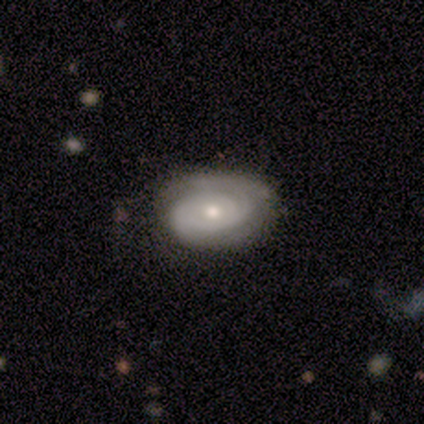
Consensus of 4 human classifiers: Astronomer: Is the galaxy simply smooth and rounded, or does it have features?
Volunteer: featured or disk — 75%.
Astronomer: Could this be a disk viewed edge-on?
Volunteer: no — 100%.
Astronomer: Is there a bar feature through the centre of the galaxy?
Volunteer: strong — 67%.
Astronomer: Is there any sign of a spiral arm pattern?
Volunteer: yes — 100%.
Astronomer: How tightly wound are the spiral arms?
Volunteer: tight — 67%.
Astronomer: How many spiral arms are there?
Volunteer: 2 — 67%.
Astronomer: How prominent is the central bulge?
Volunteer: small — 100%.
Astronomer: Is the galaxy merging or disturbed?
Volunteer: none — 75%.